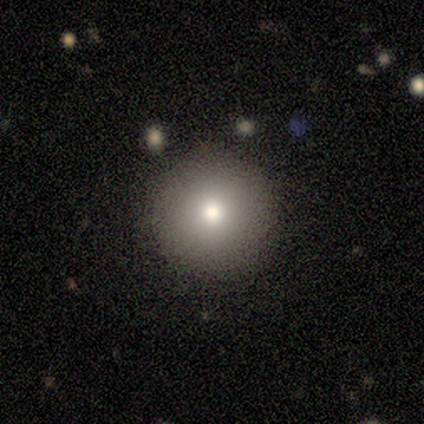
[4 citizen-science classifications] Smooth or featured?
  - smooth: 75% *
  - featured or disk: 25%
  - star or artifact: 0%
How rounded?
  - round: 100% *
  - in between: 0%
  - cigar-shaped: 0%
Merging?
  - none: 75% *
  - minor disturbance: 25%
  - major disturbance: 0%
  - merger: 0%